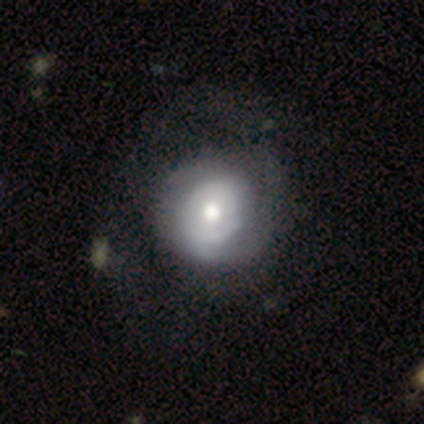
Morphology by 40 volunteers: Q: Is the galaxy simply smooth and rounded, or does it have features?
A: smooth — 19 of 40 (48%).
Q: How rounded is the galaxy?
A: round — 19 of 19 (100%).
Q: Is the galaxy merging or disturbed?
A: none — 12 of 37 (32%).